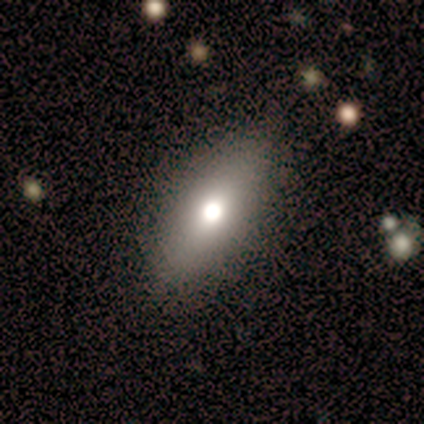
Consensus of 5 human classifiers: Overall: smooth (80%). How rounded: in between (75%). Merging: none (100%).